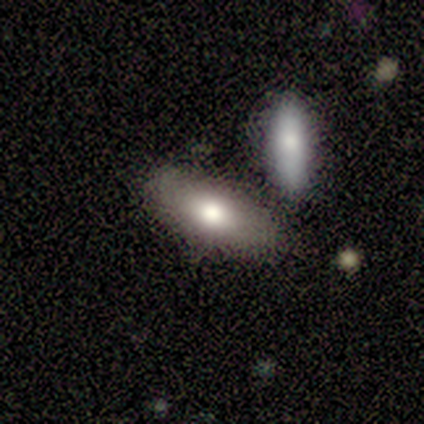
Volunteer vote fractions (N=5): Smooth or featured: smooth — 80% (featured or disk — 20%)
How rounded: in between — 50% (tied with cigar-shaped — 50%)
Merging: none — 100%